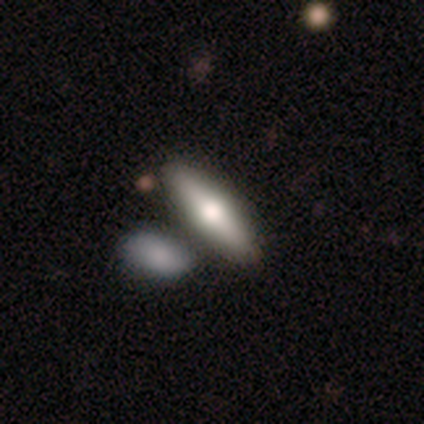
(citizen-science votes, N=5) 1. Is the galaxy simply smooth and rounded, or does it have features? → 40% smooth (tied), 40% star or artifact (tied), 20% featured or disk.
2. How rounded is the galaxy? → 50% in between (tied), 50% cigar-shaped (tied), 0% round.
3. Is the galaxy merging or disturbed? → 67% none, 33% minor disturbance, 0% major disturbance, 0% merger.